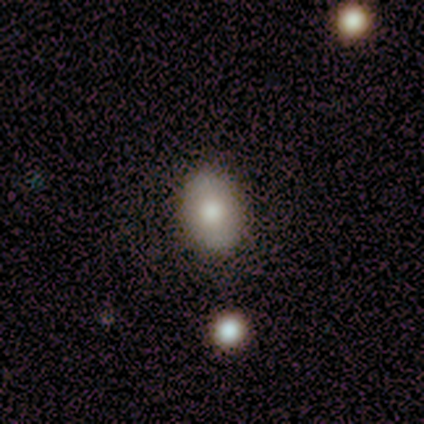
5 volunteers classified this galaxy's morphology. A smooth galaxy with no disk features (80%) that is in between round and cigar-shaped (100%). Merging: none (80%).